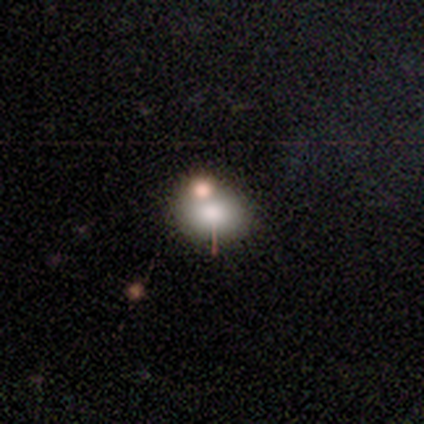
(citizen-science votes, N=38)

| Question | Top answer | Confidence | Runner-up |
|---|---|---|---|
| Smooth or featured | smooth | 74% | featured or disk (16%) |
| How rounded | round | 54% | in between (46%) |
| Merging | none | 62% | merger (26%) |